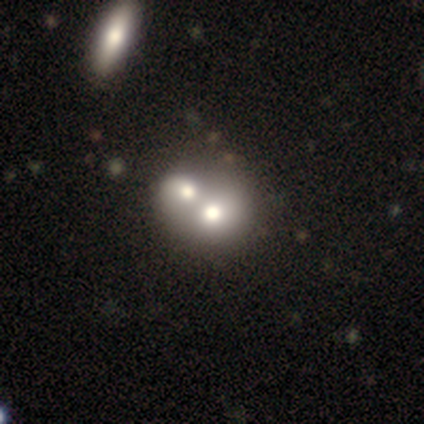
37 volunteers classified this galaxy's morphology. Smooth or featured? smooth (59%)
How rounded? round (86%)
Merging? merger (72%)